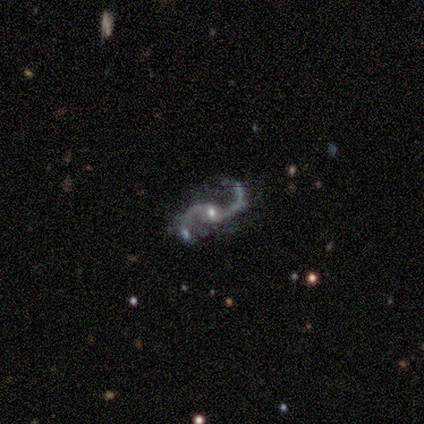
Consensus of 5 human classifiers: Overall: featured or disk (100%). Edge-on disk: no (100%). Bar: no (60%; weak 40%). Spiral arms: yes (100%). Spiral arm count: 2 (100%). Spiral winding: loose (100%). Bulge size: small (80%). Merging: none (100%).